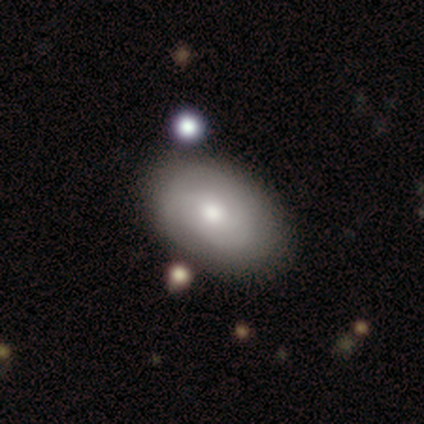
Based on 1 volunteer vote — A smooth galaxy with no disk features (100%) that is in between round and cigar-shaped (100%).

Vote fractions:
- Smooth or featured? smooth: 100% / featured or disk: 0% / star or artifact: 0%
- How rounded? in between: 100% / round: 0% / cigar-shaped: 0%
- Merging? none: 100% / minor disturbance: 0% / major disturbance: 0% / merger: 0%